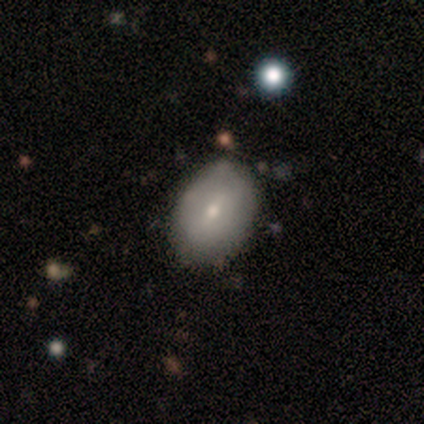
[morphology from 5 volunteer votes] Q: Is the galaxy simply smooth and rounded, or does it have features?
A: smooth — 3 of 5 (60%).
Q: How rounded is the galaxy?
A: in between — 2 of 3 (67%).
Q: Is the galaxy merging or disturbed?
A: none — 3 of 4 (75%).